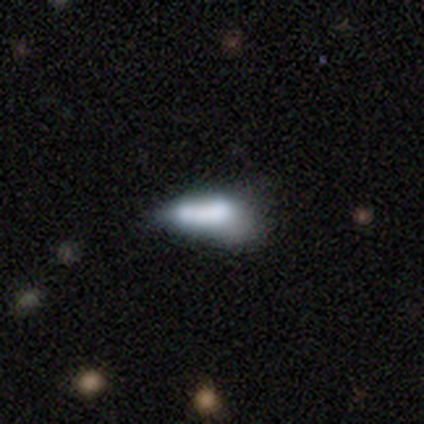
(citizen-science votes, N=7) Smooth or featured?
  - smooth: 43% * (tied)
  - featured or disk: 43% * (tied)
  - star or artifact: 14%
How rounded?
  - in between: 67% *
  - cigar-shaped: 33%
  - round: 0%
Merging?
  - major disturbance: 50% *
  - none: 17%
  - minor disturbance: 17%
  - merger: 17%